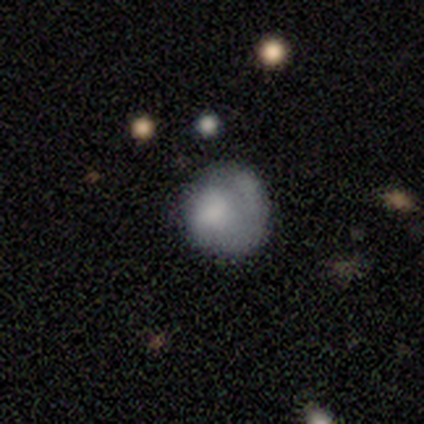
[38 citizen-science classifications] A smooth galaxy with no disk features (55%) that is round (76%).

Vote fractions:
- Smooth or featured? smooth: 55% / featured or disk: 37% / star or artifact: 8%
- How rounded? round: 76% / in between: 24% / cigar-shaped: 0%
- Merging? none: 60% / minor disturbance: 23% / major disturbance: 9% / merger: 9%